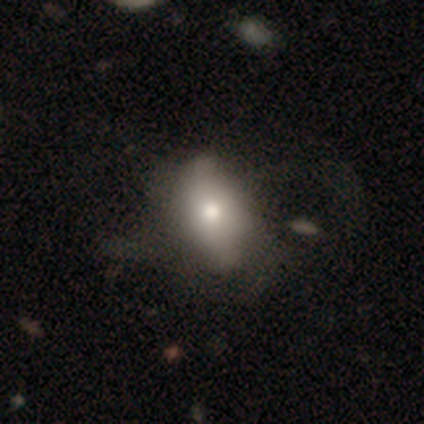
A smooth galaxy with no disk features (100%) that is in between round and cigar-shaped (100%).

Vote fractions:
- Smooth or featured? smooth: 100% / featured or disk: 0% / star or artifact: 0%
- How rounded? in between: 100% / round: 0% / cigar-shaped: 0%
- Merging? none: 60% / minor disturbance: 40% / major disturbance: 0% / merger: 0%